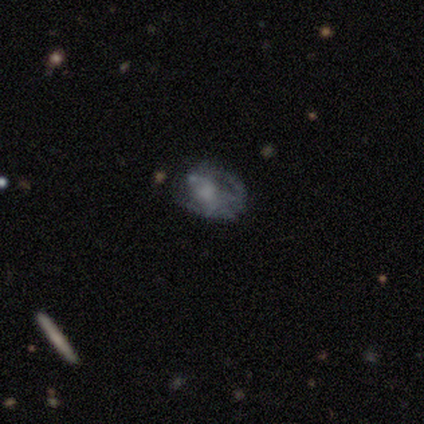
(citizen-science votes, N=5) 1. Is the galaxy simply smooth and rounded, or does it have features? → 60% featured or disk, 20% smooth, 20% star or artifact.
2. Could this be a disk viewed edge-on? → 100% no, 0% yes.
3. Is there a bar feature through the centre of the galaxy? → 67% weak, 33% no, 0% strong.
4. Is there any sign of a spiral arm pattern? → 67% yes, 33% no.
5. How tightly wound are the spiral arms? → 50% tight (tied), 50% medium (tied), 0% loose.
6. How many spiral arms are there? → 50% 1 (tied), 50% can't tell (tied), 0% 2, 0% 3, 0% 4, 0% more than 4.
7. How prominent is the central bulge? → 100% small, 0% dominant, 0% large, 0% moderate, 0% none.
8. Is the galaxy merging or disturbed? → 75% none, 25% major disturbance, 0% minor disturbance, 0% merger.